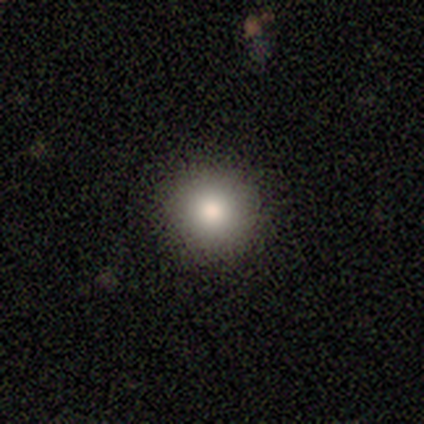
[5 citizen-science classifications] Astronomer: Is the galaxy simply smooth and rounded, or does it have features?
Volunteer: smooth — 80%.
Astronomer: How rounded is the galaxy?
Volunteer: round — 100%.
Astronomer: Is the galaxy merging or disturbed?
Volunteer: none — 100%.